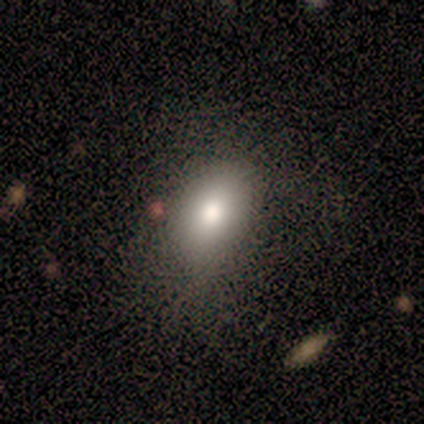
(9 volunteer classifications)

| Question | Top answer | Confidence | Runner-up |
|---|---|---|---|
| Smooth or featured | smooth | 78% | featured or disk (22%) |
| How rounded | in between | 71% | round (29%) |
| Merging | none | 78% | minor disturbance (11%) |